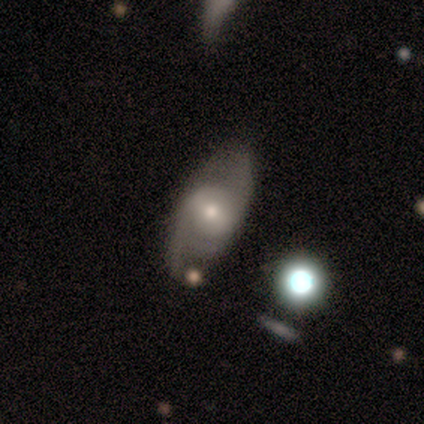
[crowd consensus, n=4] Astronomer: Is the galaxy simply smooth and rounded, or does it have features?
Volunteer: featured or disk — 100%.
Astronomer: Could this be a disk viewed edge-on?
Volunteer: no — 100%.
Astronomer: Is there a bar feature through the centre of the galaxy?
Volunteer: weak — 50%, tied with no at 50%.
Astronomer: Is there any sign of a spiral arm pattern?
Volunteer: yes — 50%, tied with no at 50%.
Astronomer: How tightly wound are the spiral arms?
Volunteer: tight — 50%, tied with loose at 50%.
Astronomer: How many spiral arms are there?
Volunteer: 2 — 100%.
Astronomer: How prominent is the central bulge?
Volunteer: small — 75%.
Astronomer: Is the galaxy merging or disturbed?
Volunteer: none — 50%, tied with minor disturbance at 50%.